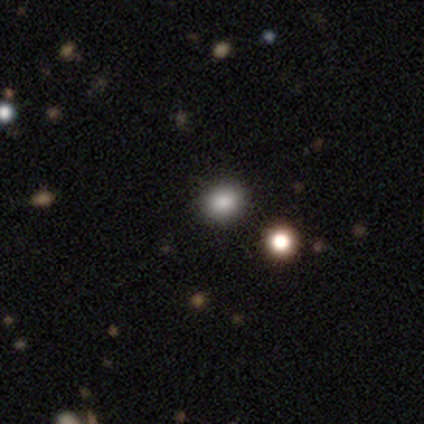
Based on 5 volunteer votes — smooth 60%, featured or disk 20%, star or artifact 20%. Down the decision tree: how rounded — in between (67%); merging — none (75%).